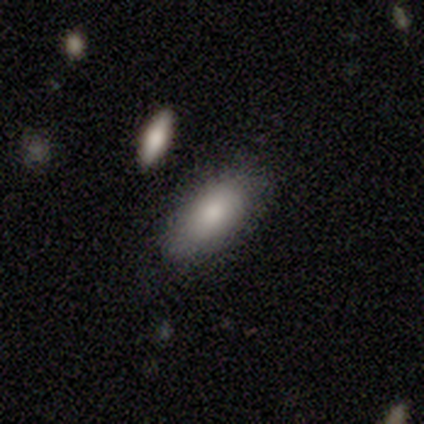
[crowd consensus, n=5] This appears to be a smooth galaxy with no disk features (100%) that is in between round and cigar-shaped (100%). Merging: none (80%).